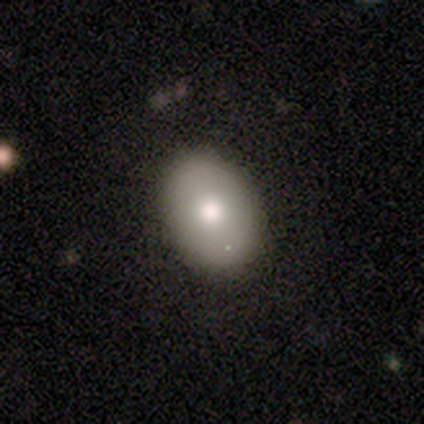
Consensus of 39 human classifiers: Q: Smooth or featured?
A: smooth (77%); runner-up: featured or disk (13%)
Q: How rounded?
A: in between (90%); runner-up: round (10%)
Q: Merging?
A: none (91%); runner-up: major disturbance (6%)